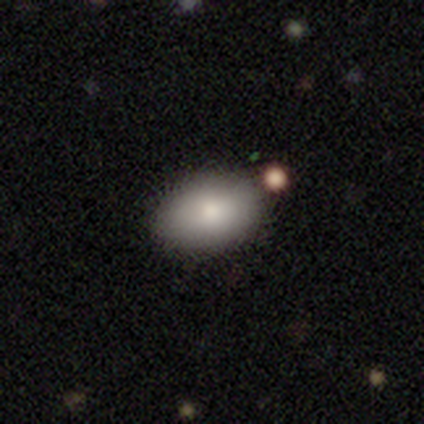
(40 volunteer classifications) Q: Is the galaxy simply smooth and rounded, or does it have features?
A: smooth — 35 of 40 (88%).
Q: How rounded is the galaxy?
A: in between — 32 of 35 (91%).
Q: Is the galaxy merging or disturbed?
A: none — 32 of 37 (86%).